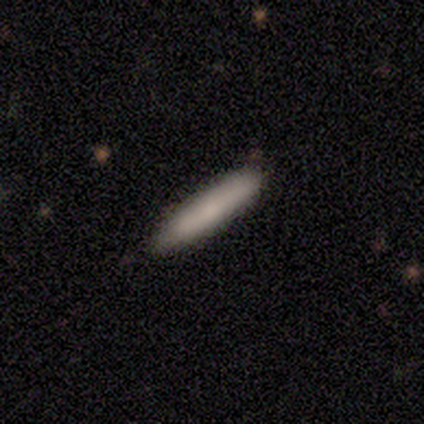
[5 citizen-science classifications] Volunteers were most divided on "smooth or featured": smooth: 80%, featured or disk: 20%, star or artifact: 0%. More confident: how rounded — cigar-shaped (100%); merging — none (100%).